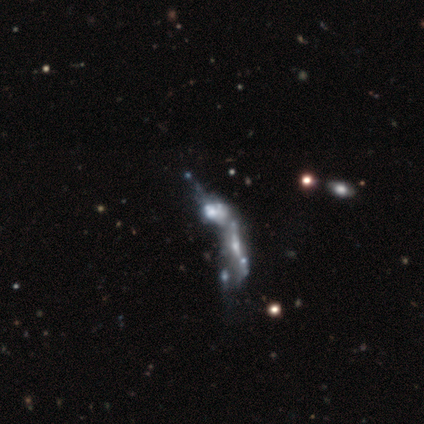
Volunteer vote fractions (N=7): This appears to be a featured or disk galaxy (71%) with no bar (100%), no spiral arms (100%) and no central bulge (60%). Merging: merger (80%).